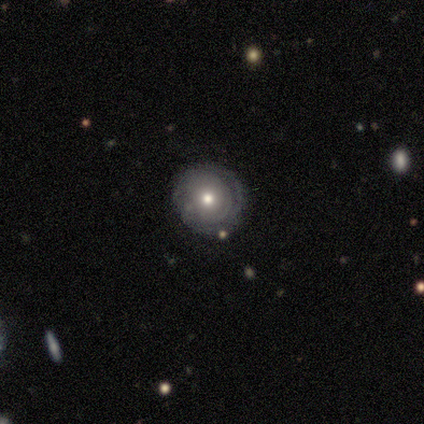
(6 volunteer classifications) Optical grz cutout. It shows a smooth galaxy with no disk features (50%) that is round (100%). Merging: none (80%).